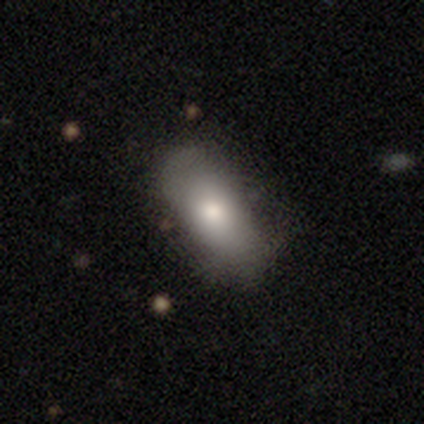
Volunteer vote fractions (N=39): smooth 67%, featured or disk 31%, star or artifact 3%. Down the decision tree: how rounded — in between (88%); merging — none (58%).